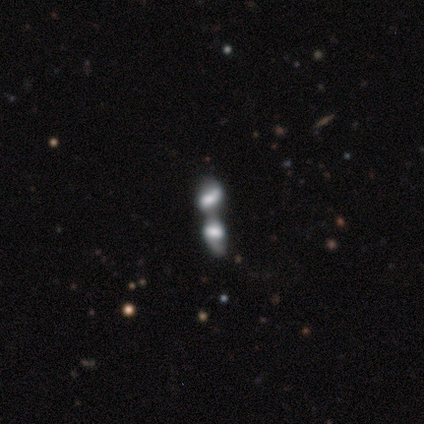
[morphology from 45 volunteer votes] featured or disk 67%, smooth 27%, star or artifact 7%. Down the decision tree: edge-on disk — no (93%); bar — no (64%); spiral arms — no (61%); bulge size — large (32%, tied with moderate); merging — merger (88%).